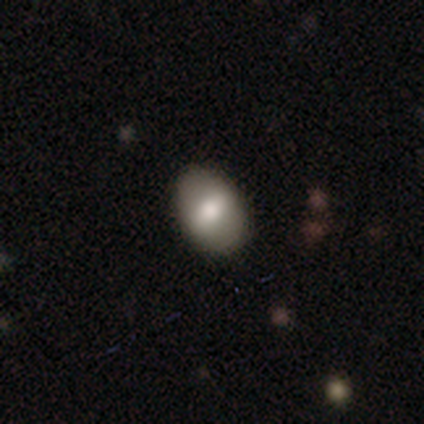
Overall: smooth (60%; featured or disk 40%). How rounded: in between (100%). Merging: none (80%).